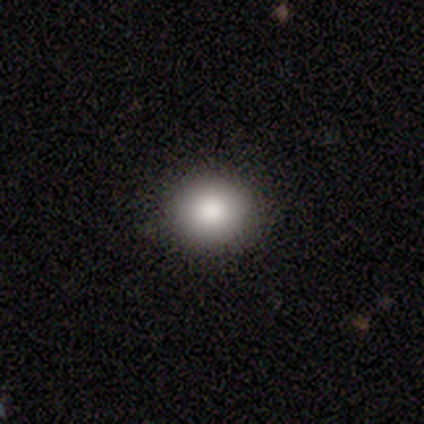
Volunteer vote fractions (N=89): A smooth galaxy with no disk features (81%) that is round (76%).

Vote fractions:
- Smooth or featured? smooth: 81% / star or artifact: 10% / featured or disk: 9%
- How rounded? round: 76% / in between: 24% / cigar-shaped: 0%
- Merging? none: 91% / minor disturbance: 6% / merger: 2% / major disturbance: 0%